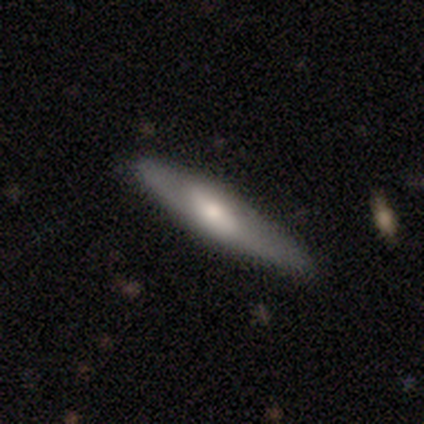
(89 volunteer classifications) featured or disk 51%, smooth 45%, star or artifact 4%. Down the decision tree: edge-on disk — yes (69%); edge-on bulge — rounded (71%); merging — none (74%).